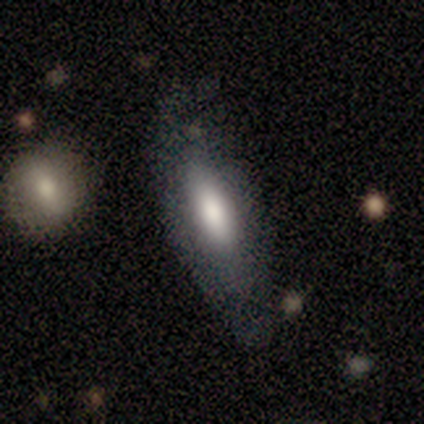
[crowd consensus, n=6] Smooth or featured? smooth (100%)
How rounded? in between (100%)
Merging? none (50%)